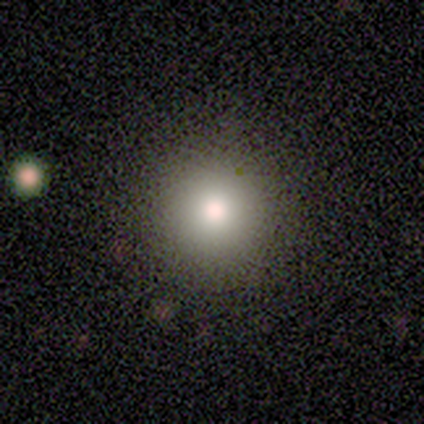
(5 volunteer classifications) smooth-or-featured: smooth: 100% | featured or disk: 0% | star or artifact: 0%
  how-rounded: round: 100% | in between: 0% | cigar-shaped: 0%
  merging: none: 100% | minor disturbance: 0% | major disturbance: 0% | merger: 0%